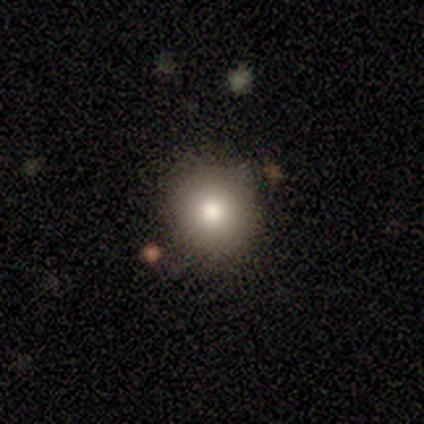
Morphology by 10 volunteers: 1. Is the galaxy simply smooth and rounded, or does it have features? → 90% smooth, 10% featured or disk, 0% star or artifact.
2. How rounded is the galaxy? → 89% round, 11% in between, 0% cigar-shaped.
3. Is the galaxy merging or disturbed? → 90% none, 10% minor disturbance, 0% major disturbance, 0% merger.